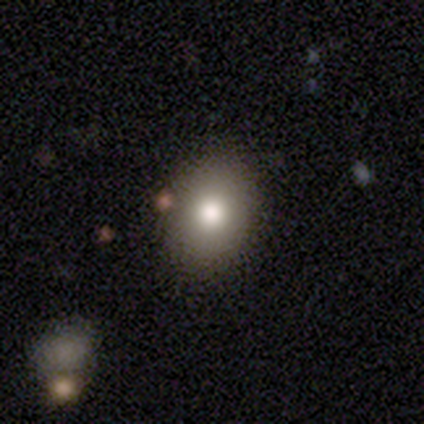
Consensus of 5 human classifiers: Overall: smooth (100%). How rounded: in between (60%; round 40%). Merging: none (80%).